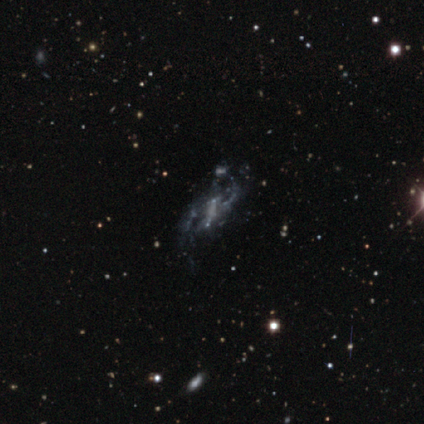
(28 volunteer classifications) This is likely a featured or disk galaxy (71%). It is clearly not viewed edge-on (95%). Bar: marginally strong (37%, tied with no). Spiral arm pattern: likely yes (63%). Spiral arm count: possibly 2 (50%). Spiral winding: marginally medium (42%). Central bulge: likely none (74%). Merging: marginally none (38%).